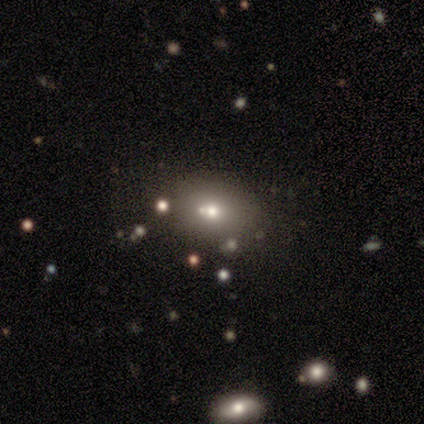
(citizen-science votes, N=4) A star or artifact, not a galaxy (75%).

Vote fractions:
- Smooth or featured? star or artifact: 75% / featured or disk: 25% / smooth: 0%